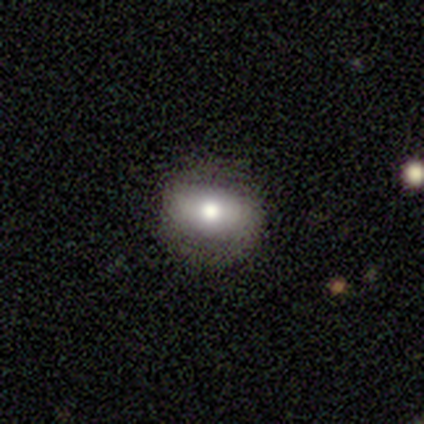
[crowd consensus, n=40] Q: Smooth or featured?
A: smooth (52%); runner-up: featured or disk (35%)
Q: How rounded?
A: in between (52%); runner-up: round (48%)
Q: Merging?
A: none (86%); runner-up: minor disturbance (11%)